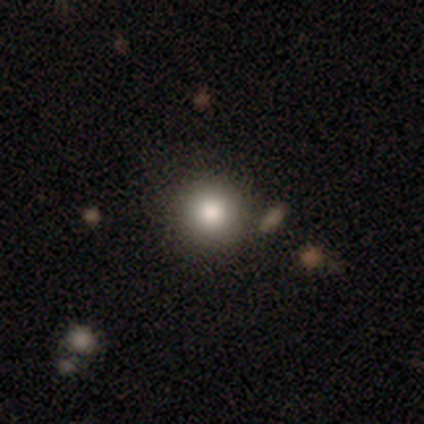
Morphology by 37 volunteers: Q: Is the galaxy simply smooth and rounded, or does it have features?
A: smooth — 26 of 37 (70%).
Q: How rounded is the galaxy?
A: round — 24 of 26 (92%).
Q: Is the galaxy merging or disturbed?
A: none — 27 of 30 (90%).